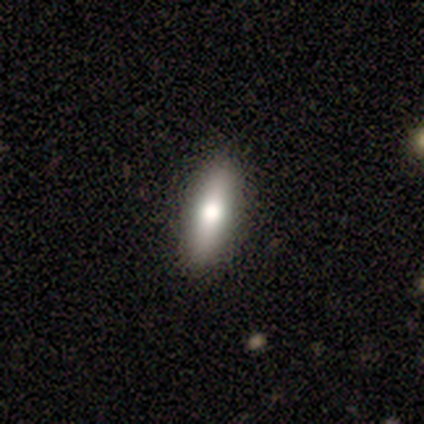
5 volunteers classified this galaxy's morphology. Smooth or featured: smooth — 60% (star or artifact — 40%)
How rounded: in between — 67% (cigar-shaped — 33%)
Merging: none — 100%